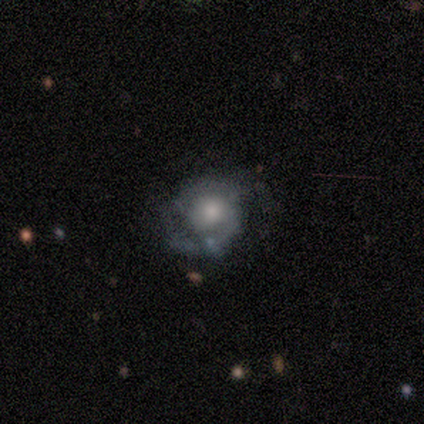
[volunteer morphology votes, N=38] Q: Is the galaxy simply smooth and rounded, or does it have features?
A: featured or disk — 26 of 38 (68%).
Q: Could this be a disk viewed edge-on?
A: no — 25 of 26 (96%).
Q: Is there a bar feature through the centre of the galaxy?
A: no — 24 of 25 (96%).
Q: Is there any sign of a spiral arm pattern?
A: yes — 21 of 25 (84%).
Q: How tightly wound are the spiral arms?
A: medium — 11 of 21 (52%).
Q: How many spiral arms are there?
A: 2 — 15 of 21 (71%).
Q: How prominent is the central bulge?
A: moderate — 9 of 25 (36%).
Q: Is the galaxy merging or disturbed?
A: none — 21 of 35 (60%).